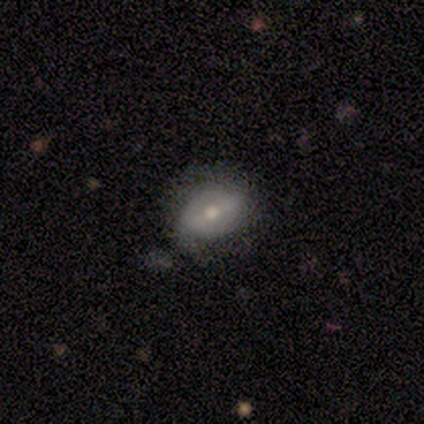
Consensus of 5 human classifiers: Smooth or featured? smooth (60%)
How rounded? in between (67%)
Merging? none (60%)